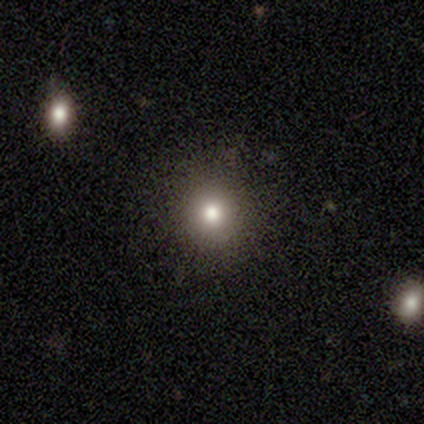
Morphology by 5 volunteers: Smooth or featured?
  - smooth: 40% * (tied)
  - star or artifact: 40% * (tied)
  - featured or disk: 20%
How rounded?
  - round: 100% *
  - in between: 0%
  - cigar-shaped: 0%
Merging?
  - none: 100% *
  - minor disturbance: 0%
  - major disturbance: 0%
  - merger: 0%